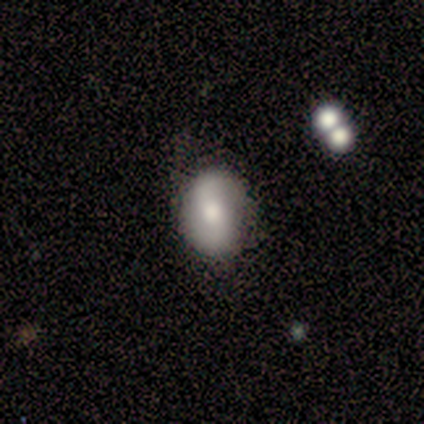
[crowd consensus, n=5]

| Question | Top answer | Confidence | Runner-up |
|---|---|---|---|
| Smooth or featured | smooth | 80% | featured or disk (20%) |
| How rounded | in between | 75% | round (25%) |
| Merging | none | 60% | minor disturbance (20%) |